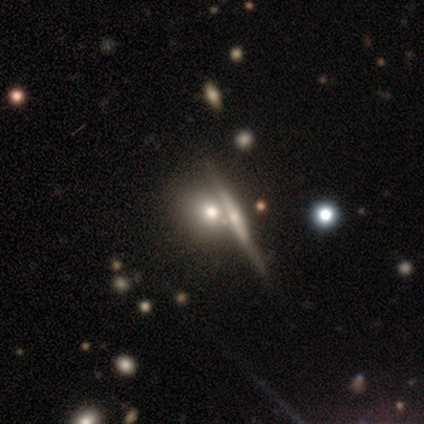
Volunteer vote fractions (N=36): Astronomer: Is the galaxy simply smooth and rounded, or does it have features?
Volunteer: smooth — 64%.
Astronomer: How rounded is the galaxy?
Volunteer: round — 70%.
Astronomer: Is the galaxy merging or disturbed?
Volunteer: merger — 55%.